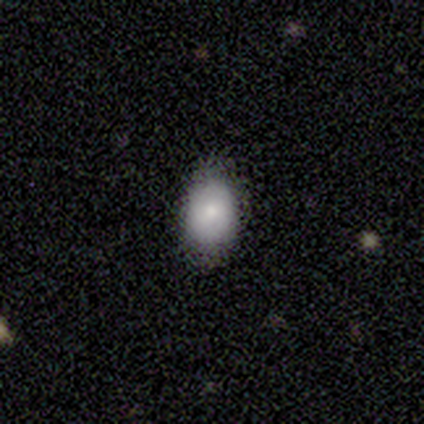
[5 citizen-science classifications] smooth 80%, star or artifact 20%, featured or disk 0%. Down the decision tree: how rounded — in between (100%); merging — none (100%).